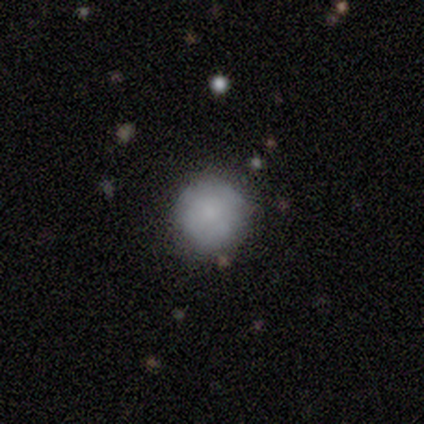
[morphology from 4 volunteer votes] smooth-or-featured: smooth: 50% (tied) | featured or disk: 50% (tied) | star or artifact: 0%
  how-rounded: round: 50% (tied) | in between: 50% (tied) | cigar-shaped: 0%
  merging: none: 75% | minor disturbance: 25% | major disturbance: 0% | merger: 0%